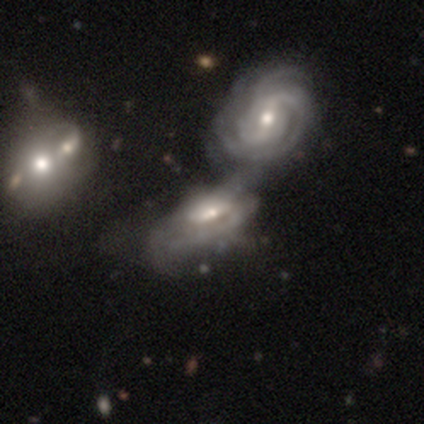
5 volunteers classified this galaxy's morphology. Smooth or featured? featured or disk (80%)
Edge-on disk? no (100%)
Bar? weak (50%, tied with no)
Spiral arms? yes (75%)
Spiral winding? medium (100%)
Spiral arm count? can't tell (67%)
Bulge size? small (50%)
Merging? merger (100%)